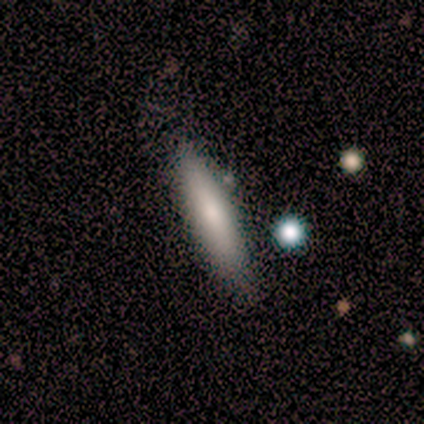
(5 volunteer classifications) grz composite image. It shows a smooth galaxy with no disk features (80%) that is cigar-shaped (75%). Merging: none (80%).